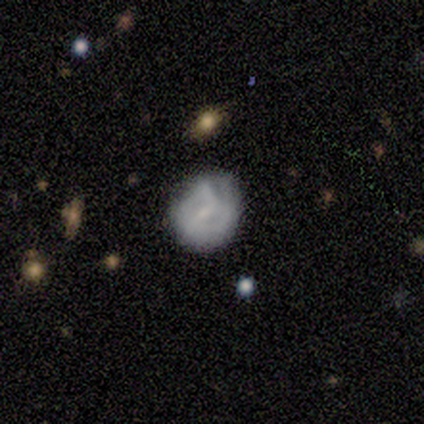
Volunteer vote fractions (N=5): Volunteers were most divided on "spiral arm count" (2-way tie): 1: 50%, can't tell: 50%, 2: 0%, 3: 0%, 4: 0%, more than 4: 0%. More confident: edge-on disk — no (100%); spiral winding — tight (100%); bar — weak (67%); spiral arms — yes (67%); bulge size — small (67%); smooth or featured — featured or disk (60%); merging — none (60%).